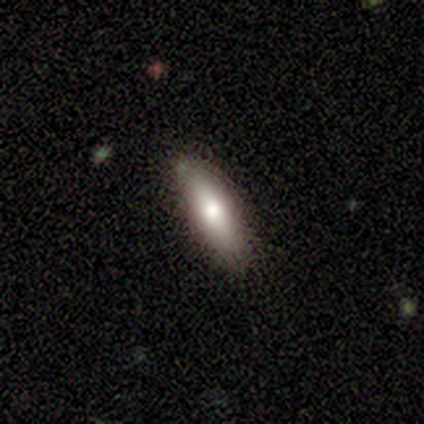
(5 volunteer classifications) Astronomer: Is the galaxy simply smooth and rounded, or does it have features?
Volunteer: smooth — 80%.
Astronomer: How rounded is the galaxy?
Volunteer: in between — 75%.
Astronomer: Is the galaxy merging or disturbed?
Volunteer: none — 100%.